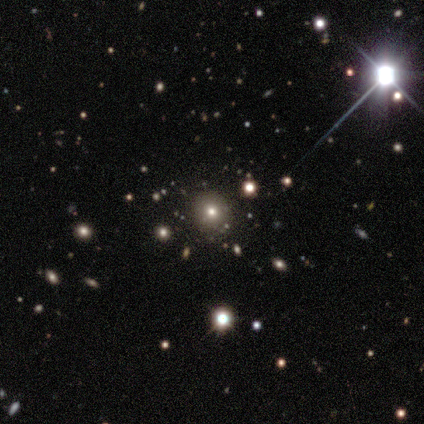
Smooth or featured?
  - smooth: 67% *
  - star or artifact: 33%
  - featured or disk: 0%
How rounded?
  - round: 100% *
  - in between: 0%
  - cigar-shaped: 0%
Merging?
  - none: 100% *
  - minor disturbance: 0%
  - major disturbance: 0%
  - merger: 0%